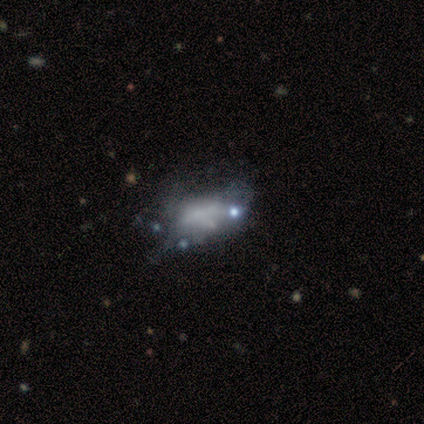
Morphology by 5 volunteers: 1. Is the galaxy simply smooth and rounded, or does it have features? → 60% smooth, 40% featured or disk, 0% star or artifact.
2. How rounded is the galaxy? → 100% in between, 0% round, 0% cigar-shaped.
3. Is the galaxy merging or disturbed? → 40% none (tied), 40% minor disturbance (tied), 20% major disturbance, 0% merger.